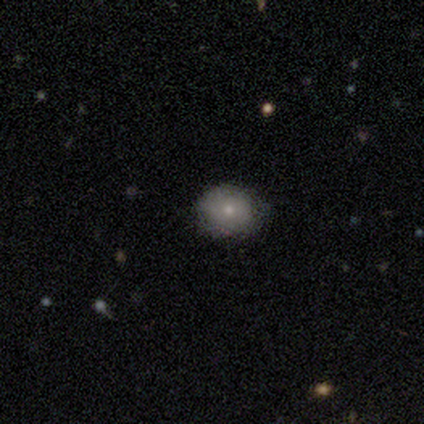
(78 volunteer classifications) Volunteers were most divided on "how rounded": round: 65%, in between: 35%, cigar-shaped: 0%. More confident: merging — none (75%); smooth or featured — smooth (67%).